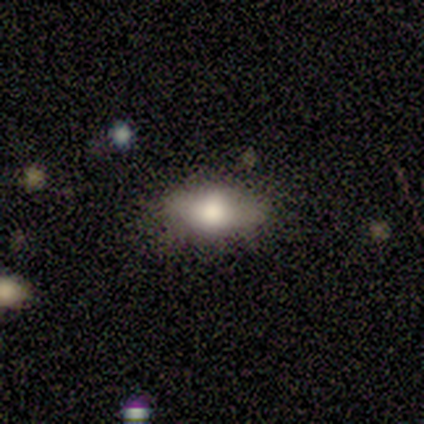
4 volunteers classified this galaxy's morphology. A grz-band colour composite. It shows a smooth galaxy with no disk features (50%, tied with featured or disk) that is round (50%, tied with in between). Merging: none (50%, tied with minor disturbance).